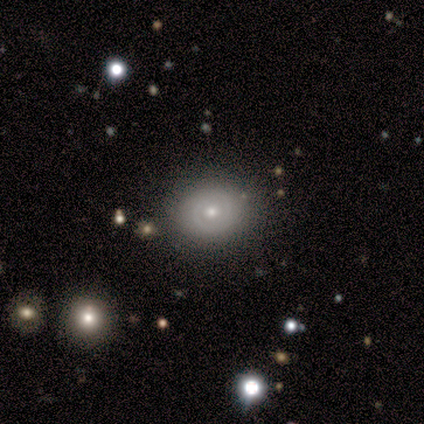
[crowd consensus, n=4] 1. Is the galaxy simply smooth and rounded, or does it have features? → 100% smooth, 0% featured or disk, 0% star or artifact.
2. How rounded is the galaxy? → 75% round, 25% in between, 0% cigar-shaped.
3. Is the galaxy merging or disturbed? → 50% none, 25% major disturbance, 25% merger, 0% minor disturbance.